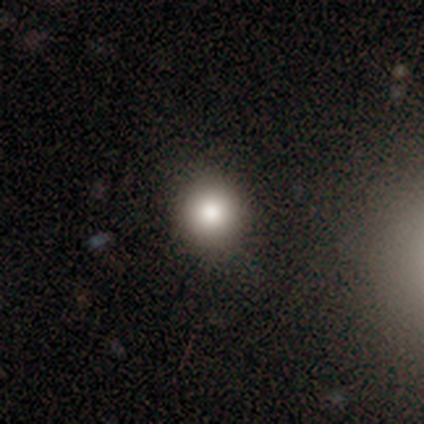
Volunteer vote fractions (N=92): Smooth or featured? 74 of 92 (80%) said smooth. How rounded? 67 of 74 (91%) said round. Merging? 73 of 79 (92%) said none.